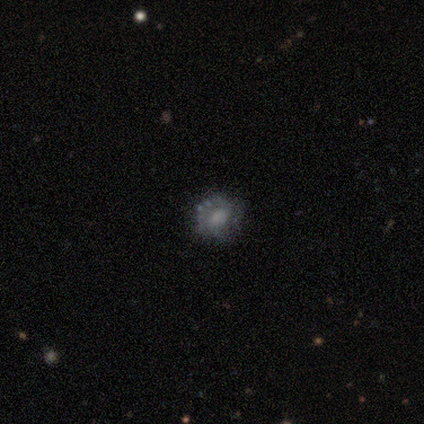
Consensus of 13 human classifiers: Smooth or featured? 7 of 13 (54%) said smooth. How rounded? 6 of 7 (86%) said round. Merging? 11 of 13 (85%) said none.